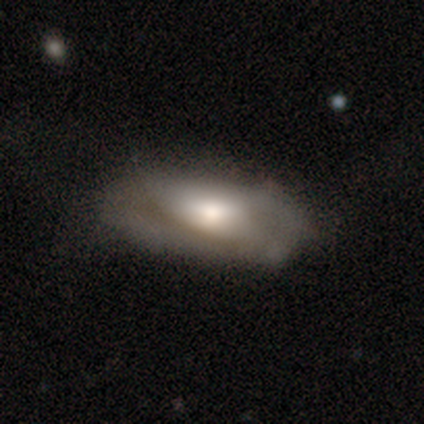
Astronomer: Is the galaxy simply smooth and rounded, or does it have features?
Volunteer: smooth — 57% (runner-up: featured or disk, 38%).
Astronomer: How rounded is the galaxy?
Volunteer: in between — 88%.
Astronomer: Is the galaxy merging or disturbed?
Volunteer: none — 64%.